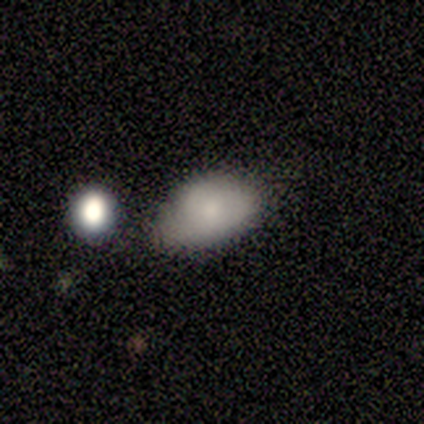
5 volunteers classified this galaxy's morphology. Smooth or featured? smooth (80%)
How rounded? in between (100%)
Merging? minor disturbance (60%)